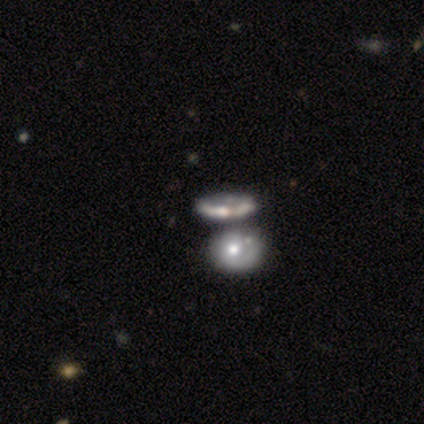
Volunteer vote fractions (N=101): smooth_or_featured: featured or disk (p=0.66) [alt: smooth p=0.24]
disk_edge_on: no (p=0.88) [alt: yes p=0.12]
bar: no (p=0.90) [alt: weak p=0.10]
has_spiral_arms: no (p=0.73) [alt: yes p=0.27]
bulge_size: moderate (p=0.56) [alt: small p=0.19]
merging: merger (p=0.56) [alt: none p=0.31]